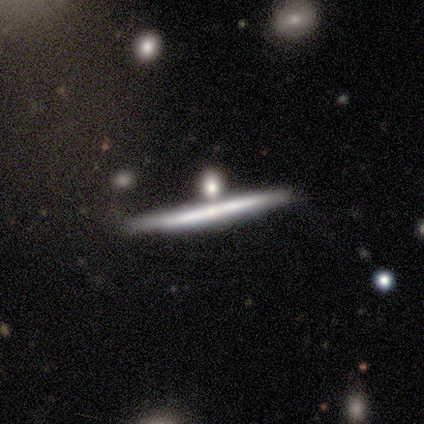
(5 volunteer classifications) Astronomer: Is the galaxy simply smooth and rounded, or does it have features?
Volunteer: featured or disk — 60% (runner-up: smooth, 40%).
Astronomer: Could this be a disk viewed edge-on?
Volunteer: yes — 100%.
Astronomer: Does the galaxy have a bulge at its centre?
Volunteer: none — 67%.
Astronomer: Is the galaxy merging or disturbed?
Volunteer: none — 60%.